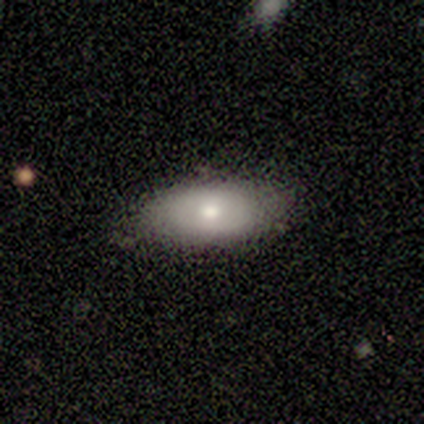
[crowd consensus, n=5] Smooth or featured?
  - featured or disk: 60% *
  - smooth: 40%
  - star or artifact: 0%
Edge-on disk?
  - yes: 100% *
  - no: 0%
Edge-on bulge?
  - rounded: 100% *
  - boxy: 0%
  - none: 0%
Merging?
  - none: 80% *
  - minor disturbance: 20%
  - major disturbance: 0%
  - merger: 0%